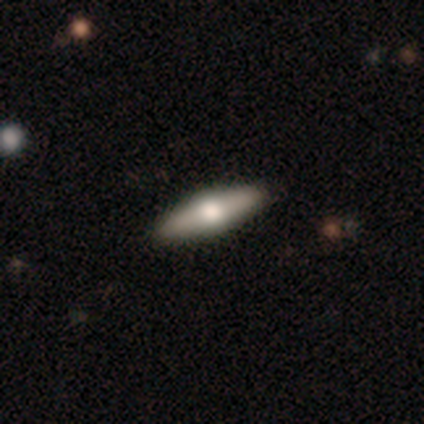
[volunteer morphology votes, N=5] smooth-or-featured: smooth: 80% | featured or disk: 20% | star or artifact: 0%
  how-rounded: cigar-shaped: 75% | in between: 25% | round: 0%
  merging: none: 100% | minor disturbance: 0% | major disturbance: 0% | merger: 0%